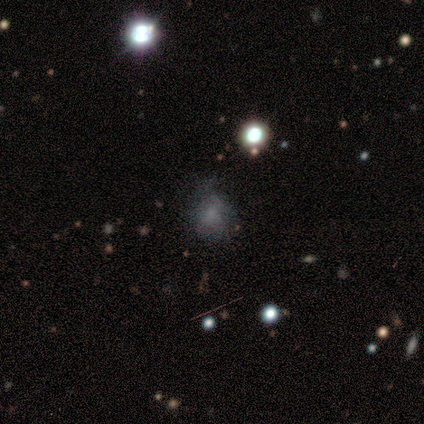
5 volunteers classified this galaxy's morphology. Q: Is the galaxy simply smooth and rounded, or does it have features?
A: smooth — 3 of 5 (60%).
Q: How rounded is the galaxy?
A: in between — 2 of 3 (67%).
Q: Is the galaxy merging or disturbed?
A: minor disturbance — 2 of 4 (50%).